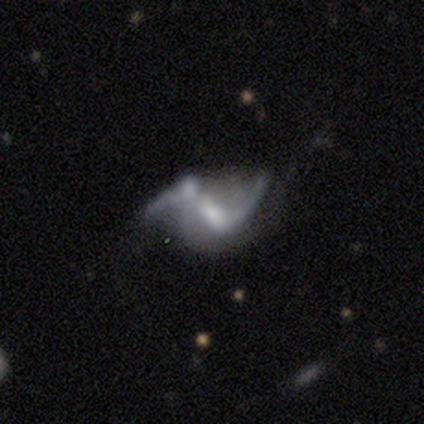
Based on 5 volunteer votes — Smooth or featured: featured or disk — 80% (star or artifact — 20%)
Edge-on disk: no — 100%
Bar: strong — 50% (tied with weak — 50%)
Spiral arms: yes — 75% (no — 25%)
Spiral winding: loose — 67% (medium — 33%)
Spiral arm count: 2 — 67% (can't tell — 33%)
Bulge size: moderate — 50% (tied with small — 50%)
Merging: major disturbance — 50% (minor disturbance — 25%)